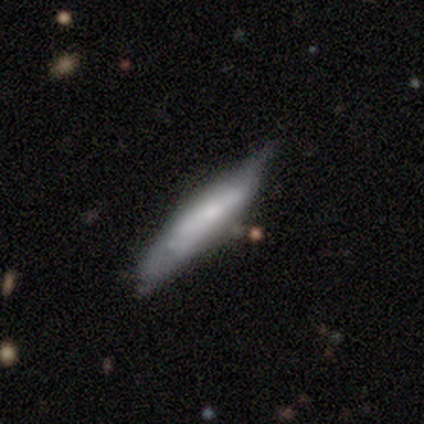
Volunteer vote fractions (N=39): smooth_or_featured: smooth (p=0.46) [tied with: featured or disk p=0.46]
how_rounded: cigar-shaped (p=0.94) [alt: in between p=0.06]
merging: none (p=0.53) [alt: minor disturbance p=0.31]